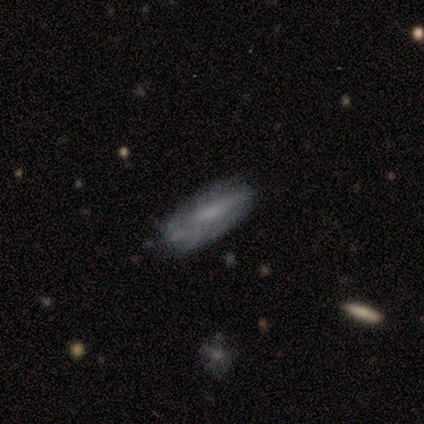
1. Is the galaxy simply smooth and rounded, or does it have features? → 57% smooth, 43% featured or disk, 0% star or artifact.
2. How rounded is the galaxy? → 50% in between (tied), 50% cigar-shaped (tied), 0% round.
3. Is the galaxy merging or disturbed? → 43% minor disturbance, 29% none, 14% major disturbance, 14% merger.